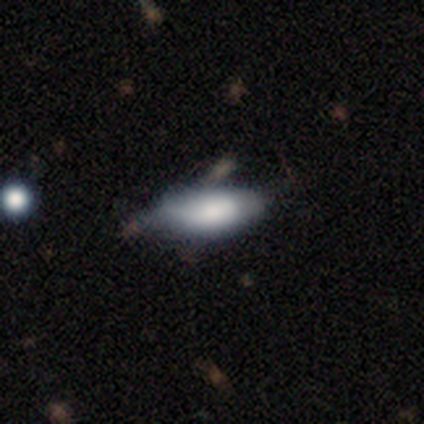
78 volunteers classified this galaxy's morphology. smooth_or_featured: smooth (p=0.68) [alt: featured or disk p=0.23]
how_rounded: in between (p=0.79) [alt: cigar-shaped p=0.19]
merging: none (p=0.45) [alt: minor disturbance p=0.39]